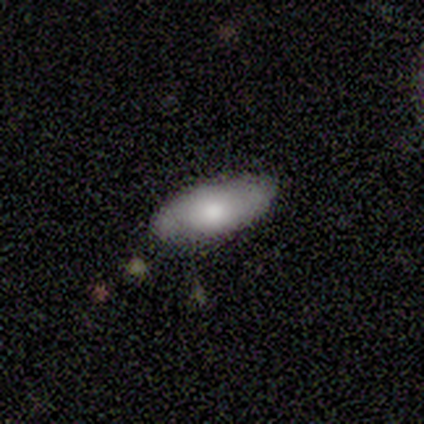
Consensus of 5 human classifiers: A smooth galaxy with no disk features (100%) that is in between round and cigar-shaped (80%). Merging: none (60%).